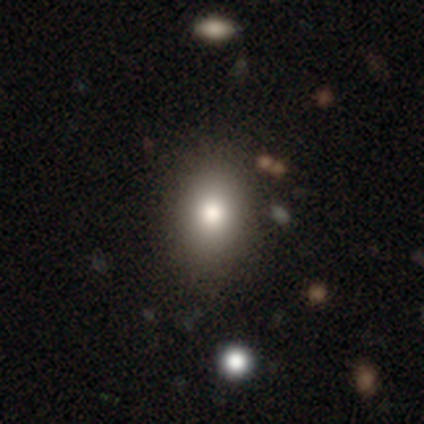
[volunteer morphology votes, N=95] smooth_or_featured: smooth (p=0.77) [alt: featured or disk p=0.14]
how_rounded: in between (p=0.73) [alt: round p=0.25]
merging: none (p=0.81) [alt: minor disturbance p=0.12]